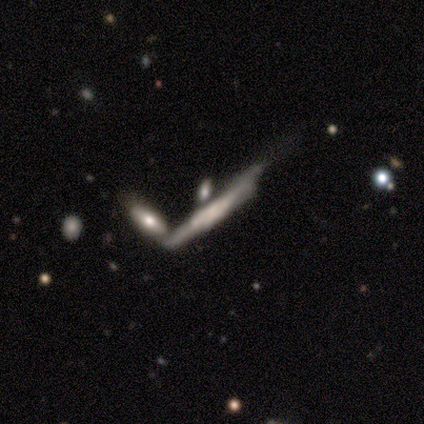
Morphology: type=featured or disk (100%); edge-on=yes (80%); edge-on bulge=boxy (100%); merging=merger (40%).